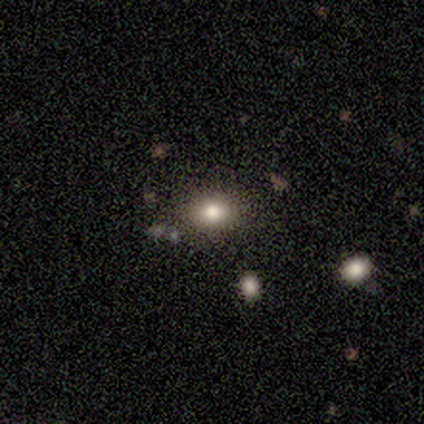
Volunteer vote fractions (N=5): Overall: smooth (60%; star or artifact 40%). How rounded: round (67%; in between 33%). Merging: none (100%).